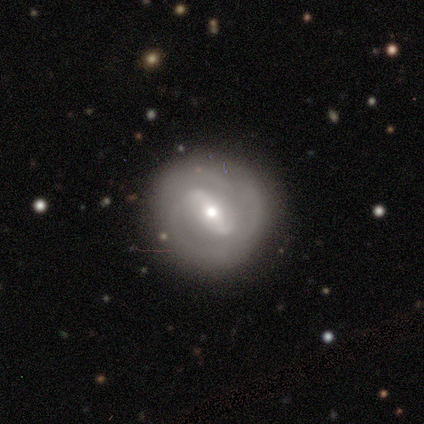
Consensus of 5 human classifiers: smooth_or_featured: featured or disk (p=0.80) [alt: smooth p=0.20]
disk_edge_on: no (p=1.00)
bar: strong (p=0.75) [alt: weak p=0.25]
has_spiral_arms: yes (p=1.00)
spiral_winding: tight (p=0.50) [alt: medium p=0.25]
spiral_arm_count: 2 (p=0.75) [alt: can't tell p=0.25]
bulge_size: small (p=0.75) [alt: moderate p=0.25]
merging: none (p=1.00)